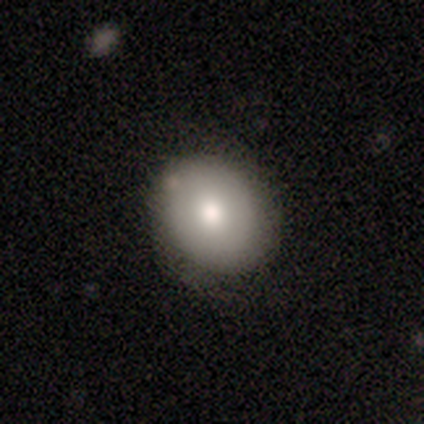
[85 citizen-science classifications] smooth-or-featured: smooth: 76% | featured or disk: 19% | star or artifact: 5%
  how-rounded: in between: 58% | round: 38% | cigar-shaped: 3%
  merging: none: 78% | minor disturbance: 20% | major disturbance: 1% | merger: 1%